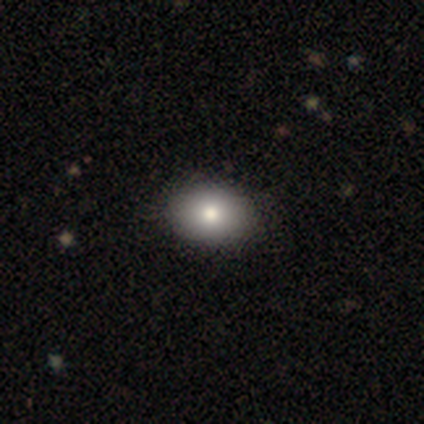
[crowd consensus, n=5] Smooth or featured? star or artifact (60%)